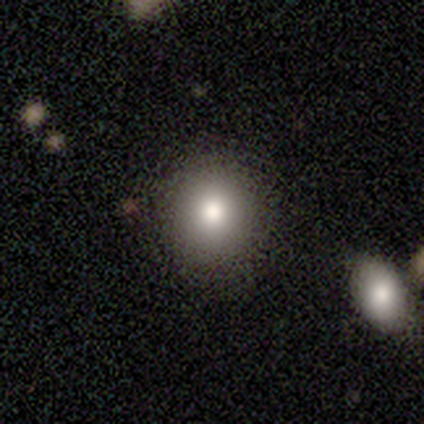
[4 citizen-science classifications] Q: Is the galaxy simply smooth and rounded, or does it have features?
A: smooth — 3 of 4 (75%).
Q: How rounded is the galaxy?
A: round — 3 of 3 (100%).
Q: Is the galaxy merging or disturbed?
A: none — 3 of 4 (75%).